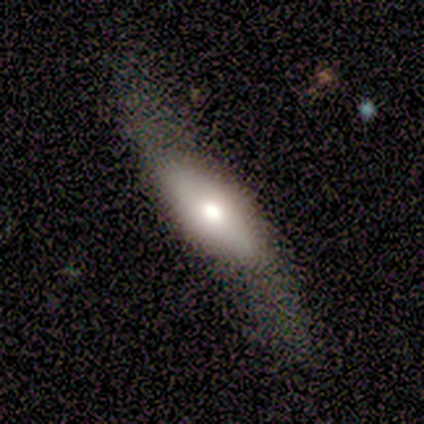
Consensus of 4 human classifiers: featured or disk 50%, smooth 25%, star or artifact 25%. Down the decision tree: edge-on disk — no (100%); bar — no (100%); spiral arms — yes (100%); spiral arm count — 2 (100%); spiral winding — loose (100%); bulge size — large (50%, tied with small); merging — minor disturbance (67%).